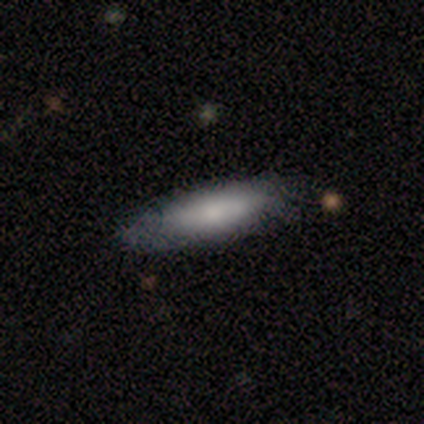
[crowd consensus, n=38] Overall: smooth (66%; featured or disk 26%). How rounded: cigar-shaped (68%; in between 32%). Merging: none (57%; minor disturbance 40%).